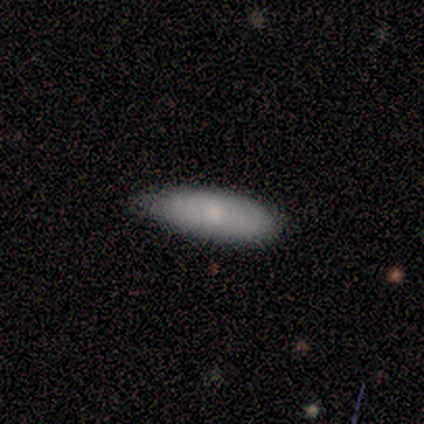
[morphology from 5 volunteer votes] Overall: smooth (80%). How rounded: in between (100%). Merging: minor disturbance (100%).